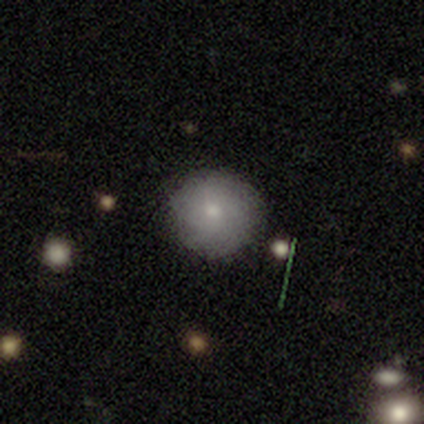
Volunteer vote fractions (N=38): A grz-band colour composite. It shows a smooth galaxy with no disk features (82%) that is round (100%). Merging: none (75%).